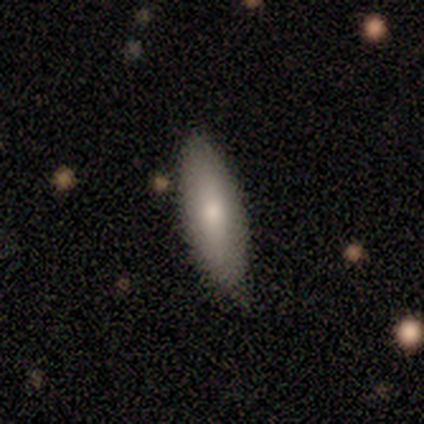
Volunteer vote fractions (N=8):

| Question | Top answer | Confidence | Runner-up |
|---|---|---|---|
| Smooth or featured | smooth | 75% | featured or disk (25%) |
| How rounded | in between | 83% | cigar-shaped (17%) |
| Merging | none | 75% | minor disturbance (12%) |